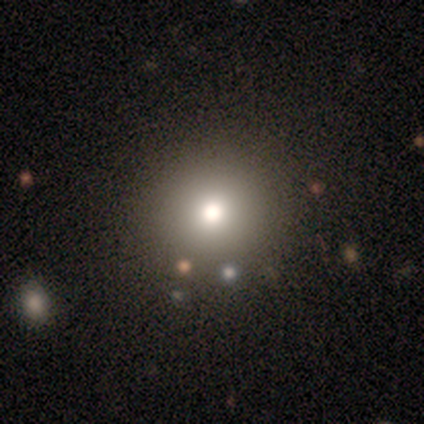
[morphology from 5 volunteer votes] A smooth galaxy with no disk features (60%) that is round (100%). Merging: none (100%).